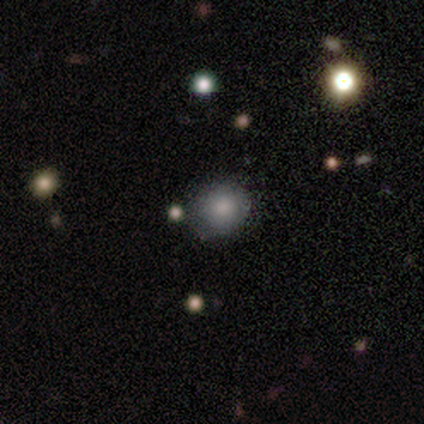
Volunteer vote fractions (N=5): smooth_or_featured: smooth (p=1.00)
how_rounded: round (p=0.80) [alt: in between p=0.20]
merging: none (p=0.80) [alt: merger p=0.20]